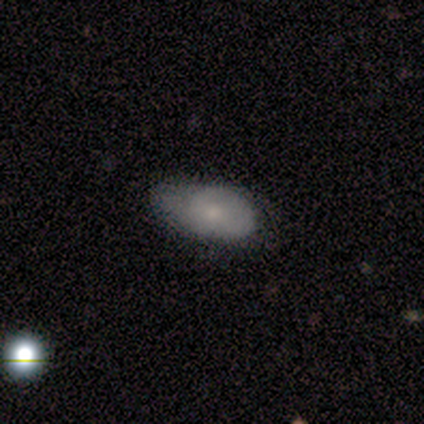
Volunteers were most divided on "merging" (2-way tie): none: 50%, minor disturbance: 50%, major disturbance: 0%, merger: 0%. More confident: how rounded — in between (100%); smooth or featured — smooth (83%).